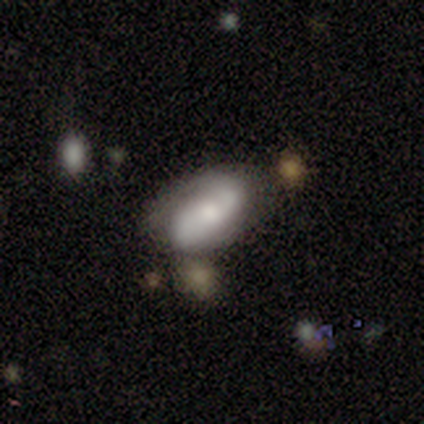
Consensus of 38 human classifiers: Volunteers were most divided on "merging": none: 45%, minor disturbance: 37%, merger: 13%, major disturbance: 5%. Remaining: edge-on disk — no (95%); spiral arms — yes (95%); spiral arm count — 2 (95%); smooth or featured — featured or disk (55%); spiral winding — medium (47%); bar — weak (45%); bulge size — moderate (45%).